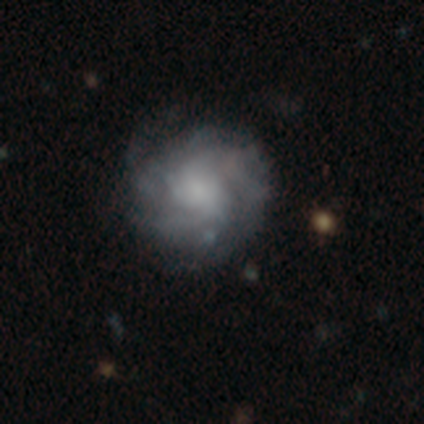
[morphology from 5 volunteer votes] Smooth or featured? 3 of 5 (60%) said featured or disk. Edge-on disk? 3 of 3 (100%) said no. Bar? 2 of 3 (67%) said weak. Spiral arms? 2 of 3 (67%) said yes. Spiral winding? 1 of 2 (50%, tied with loose) said medium. Spiral arm count? 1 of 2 (50%, tied with can't tell) said more than 4. Bulge size? 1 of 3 (33%, tied with small and none) said large. Merging? 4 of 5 (80%) said none.